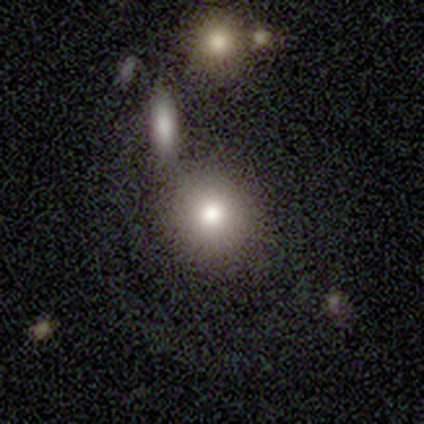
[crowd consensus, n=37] Smooth or featured?
  - smooth: 78% *
  - featured or disk: 11%
  - star or artifact: 11%
How rounded?
  - round: 83% *
  - in between: 17%
  - cigar-shaped: 0%
Merging?
  - none: 52% *
  - major disturbance: 18%
  - merger: 18%
  - minor disturbance: 12%